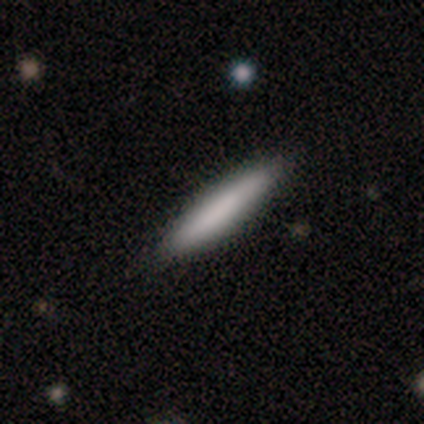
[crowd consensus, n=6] This appears to be a smooth galaxy with no disk features (83%) that is cigar-shaped (100%). Merging: none (83%).